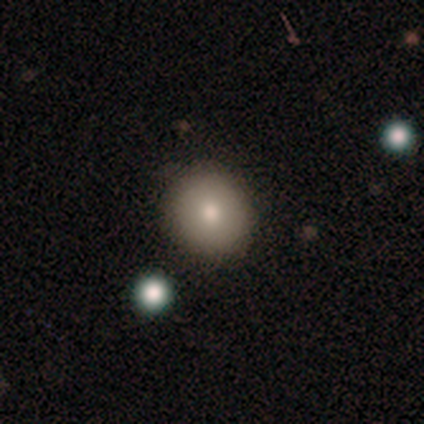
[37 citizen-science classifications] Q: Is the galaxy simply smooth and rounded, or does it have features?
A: smooth — 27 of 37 (73%).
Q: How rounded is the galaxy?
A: round — 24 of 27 (89%).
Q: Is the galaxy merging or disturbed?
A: none — 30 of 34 (88%).